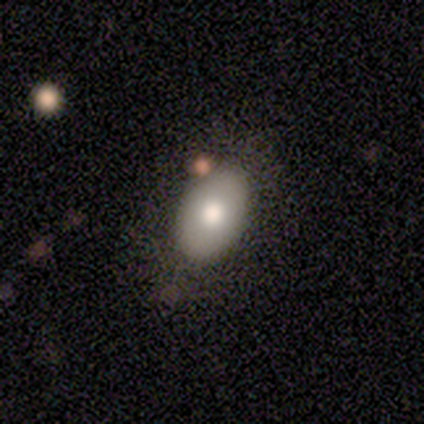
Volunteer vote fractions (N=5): smooth 80%, featured or disk 20%, star or artifact 0%. Down the decision tree: how rounded — in between (100%); merging — none (100%).